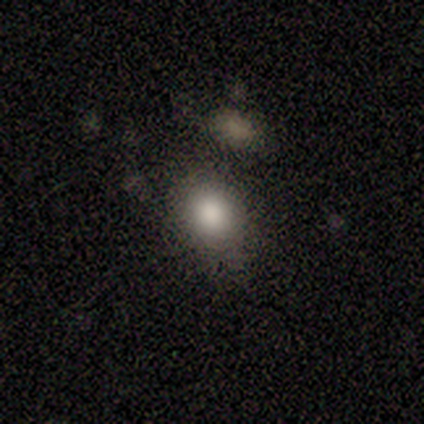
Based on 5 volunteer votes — Overall: smooth (80%). How rounded: in between (75%). Merging: minor disturbance (50%; none 25%).